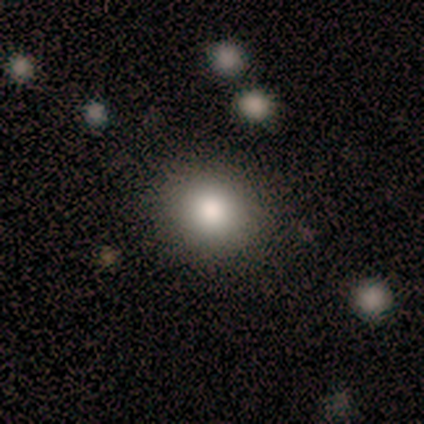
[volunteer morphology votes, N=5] A smooth galaxy with no disk features (100%) that is round (100%). Merging: none (100%).